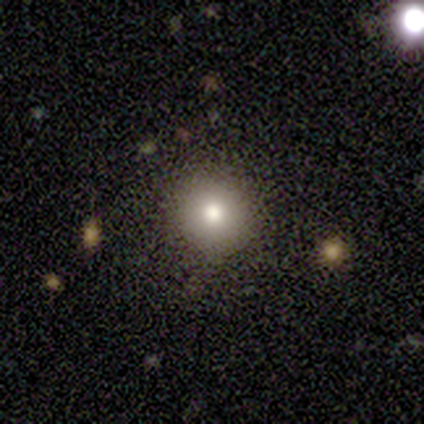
smooth 100%, featured or disk 0%, star or artifact 0%. Down the decision tree: how rounded — round (100%); merging — none (80%).